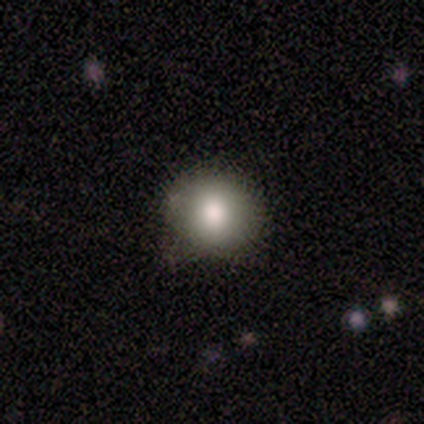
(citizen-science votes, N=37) Volunteers were most divided on "merging": none: 78%, minor disturbance: 22%, major disturbance: 0%, merger: 0%. More confident: smooth or featured — smooth (89%); how rounded — round (85%).